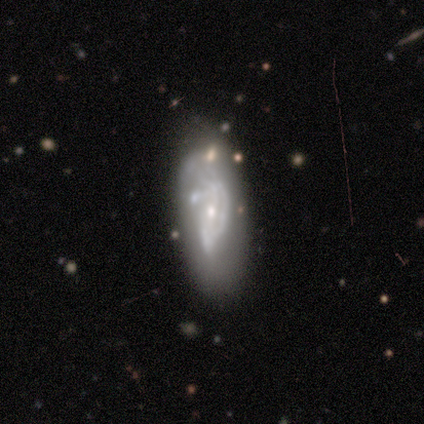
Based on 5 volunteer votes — Smooth or featured? 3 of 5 (60%) said featured or disk. Edge-on disk? 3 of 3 (100%) said no. Bar? 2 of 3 (67%) said weak. Spiral arms? 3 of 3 (100%) said yes. Spiral winding? 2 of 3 (67%) said tight. Spiral arm count? 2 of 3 (67%) said can't tell. Bulge size? 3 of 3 (100%) said small. Merging? 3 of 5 (60%) said none.